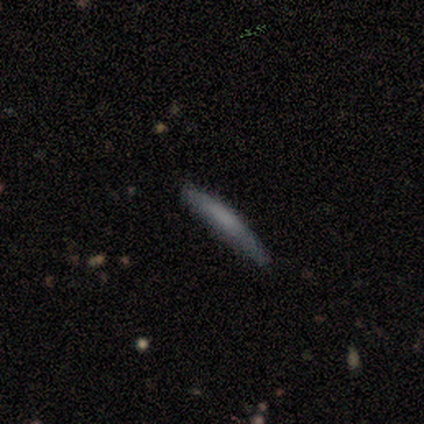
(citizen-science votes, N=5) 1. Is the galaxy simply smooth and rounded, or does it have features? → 60% smooth, 20% featured or disk, 20% star or artifact.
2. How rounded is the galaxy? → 100% cigar-shaped, 0% round, 0% in between.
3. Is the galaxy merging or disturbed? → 75% none, 25% minor disturbance, 0% major disturbance, 0% merger.